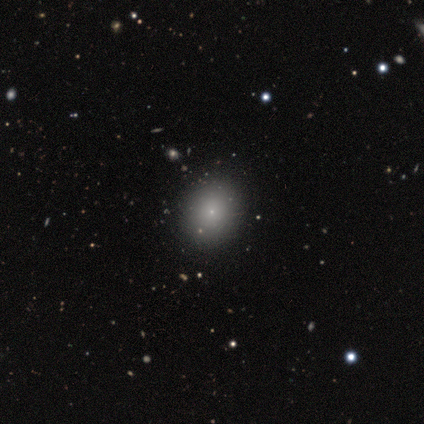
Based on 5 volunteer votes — Q: Smooth or featured?
A: smooth (80%); runner-up: star or artifact (20%)
Q: How rounded?
A: round (50%); tied with: in between (50%)
Q: Merging?
A: none (100%)